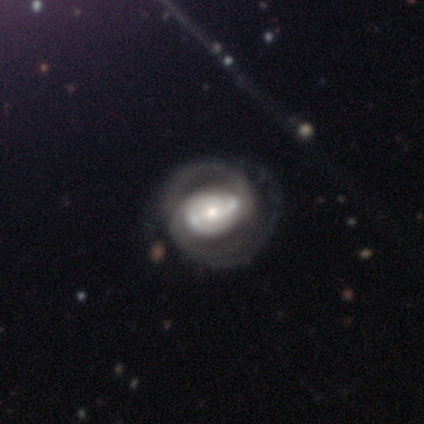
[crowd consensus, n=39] This appears to be a featured or disk galaxy (92%) with a strong bar (54%), 2 (88%) tight (59%) spiral arms (97%) and a moderate central bulge (63%). Merging: none (49%).